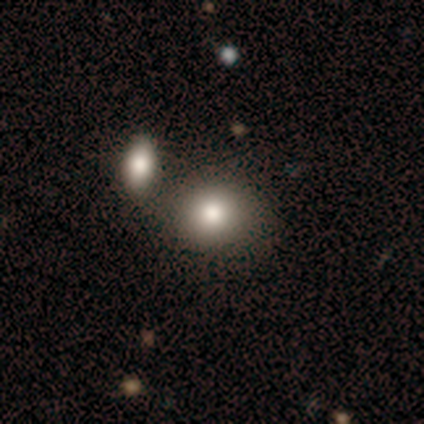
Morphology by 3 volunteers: Q: Smooth or featured?
A: smooth (100%)
Q: How rounded?
A: in between (67%); runner-up: round (33%)
Q: Merging?
A: none (100%)